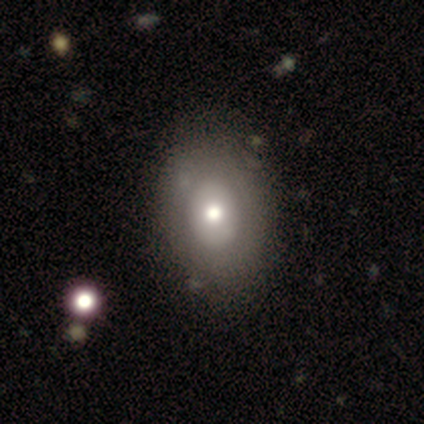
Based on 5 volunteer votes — smooth_or_featured: featured or disk (p=0.40) [tied with: star or artifact p=0.40]
disk_edge_on: no (p=1.00)
bar: no (p=1.00)
has_spiral_arms: no (p=1.00)
bulge_size: moderate (p=1.00)
merging: none (p=0.67) [alt: minor disturbance p=0.33]